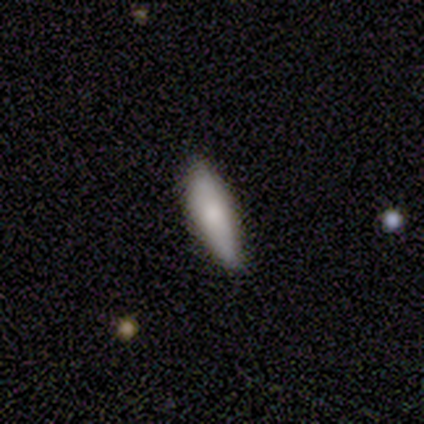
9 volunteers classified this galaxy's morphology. Volunteers were most divided on "merging": none: 67%, minor disturbance: 33%, major disturbance: 0%, merger: 0%. More confident: smooth or featured — smooth (89%); how rounded — cigar-shaped (75%).